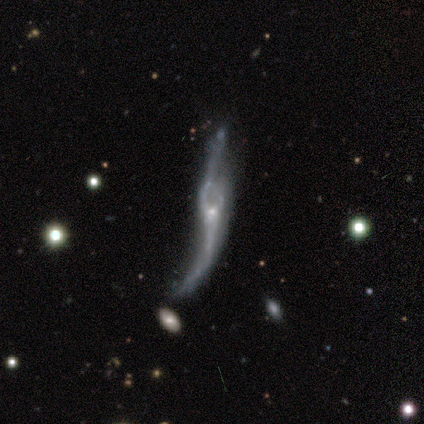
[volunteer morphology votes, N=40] Volunteers were most divided on "merging": none: 31%, minor disturbance: 28%, major disturbance: 22%, merger: 19%. More confident: spiral winding — loose (93%); smooth or featured — featured or disk (82%); bar — no (73%); spiral arms — yes (68%); bulge size — small (68%); edge-on disk — no (67%); spiral arm count — 2 (60%).